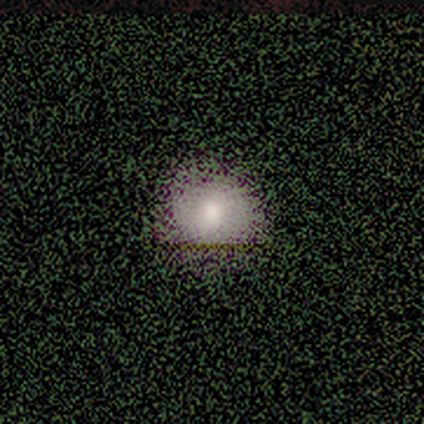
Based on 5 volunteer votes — A smooth galaxy with no disk features (60%) that is in between round and cigar-shaped (67%).

Vote fractions:
- Smooth or featured? smooth: 60% / star or artifact: 40% / featured or disk: 0%
- How rounded? in between: 67% / round: 33% / cigar-shaped: 0%
- Merging? none: 67% / minor disturbance: 33% / major disturbance: 0% / merger: 0%